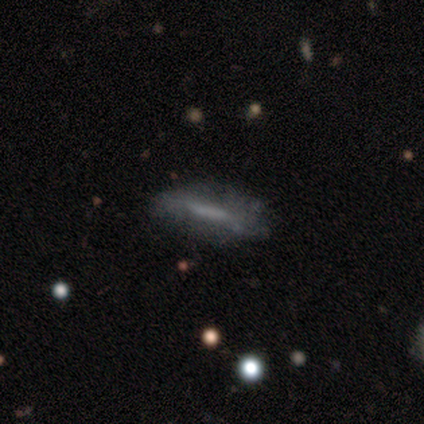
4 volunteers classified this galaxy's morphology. Smooth or featured? featured or disk (75%)
Edge-on disk? no (67%)
Bar? strong (50%, tied with weak)
Spiral arms? no (100%)
Bulge size? none (100%)
Merging? none (50%, tied with minor disturbance)